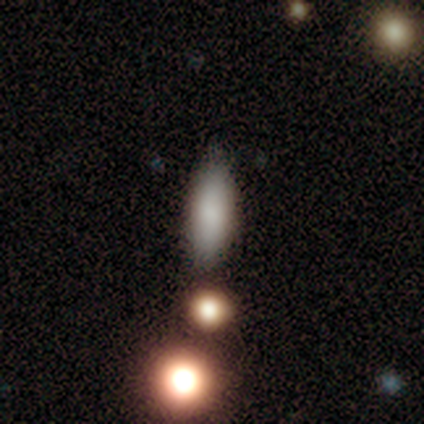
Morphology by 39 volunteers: This is likely a smooth galaxy (79%). How rounded: possibly in between (52%). Merging: likely none (65%).